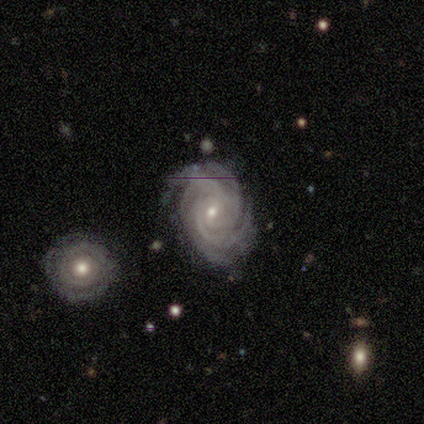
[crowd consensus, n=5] Smooth or featured? 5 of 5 (100%) said featured or disk. Edge-on disk? 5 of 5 (100%) said no. Bar? 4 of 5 (80%) said no. Spiral arms? 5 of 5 (100%) said yes. Spiral winding? 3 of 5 (60%) said tight. Spiral arm count? 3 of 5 (60%) said 4. Bulge size? 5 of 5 (100%) said small. Merging? 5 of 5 (100%) said none.